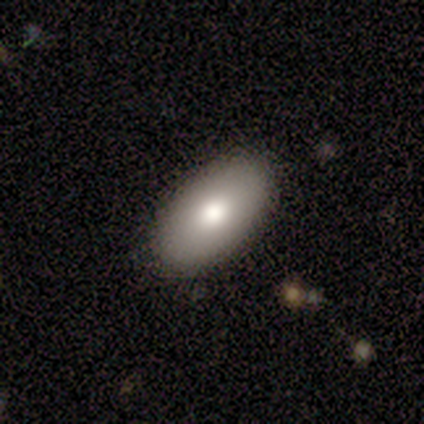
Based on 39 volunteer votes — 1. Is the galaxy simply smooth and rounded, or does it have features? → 77% smooth, 21% featured or disk, 3% star or artifact.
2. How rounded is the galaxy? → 90% in between, 7% round, 3% cigar-shaped.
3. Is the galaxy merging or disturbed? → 89% none, 8% minor disturbance, 3% major disturbance, 0% merger.